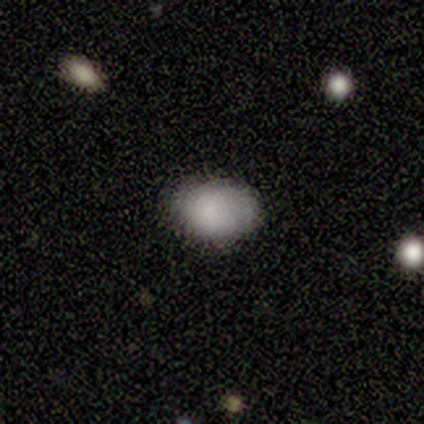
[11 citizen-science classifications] Smooth or featured: smooth — 91% (star or artifact — 9%)
How rounded: in between — 90% (round — 10%)
Merging: none — 100%